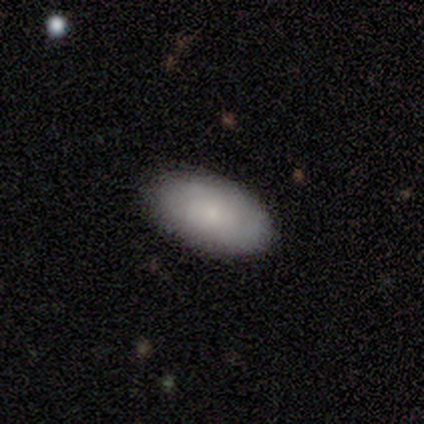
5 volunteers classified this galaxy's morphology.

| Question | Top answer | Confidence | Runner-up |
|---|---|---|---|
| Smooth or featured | smooth | 60% | featured or disk (40%) |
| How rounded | in between | 100% | — |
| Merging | none | 80% | minor disturbance (20%) |